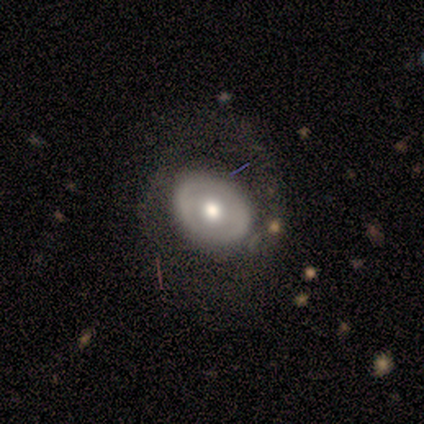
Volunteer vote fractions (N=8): Morphology: type=featured or disk (62%); edge-on=no (100%); bar=no (60%); spiral arms=no (60%); bulge=moderate (100%); merging=none (57%).